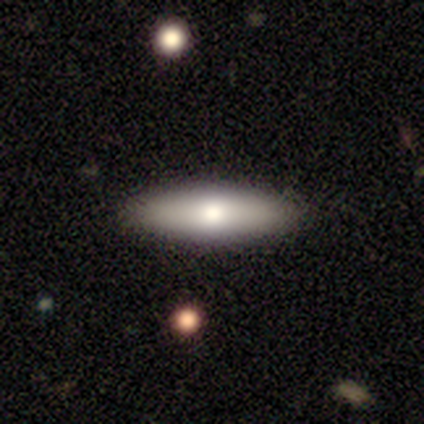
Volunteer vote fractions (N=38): Smooth or featured?
  - smooth: 89% *
  - featured or disk: 8%
  - star or artifact: 3%
How rounded?
  - cigar-shaped: 56% *
  - in between: 44%
  - round: 0%
Merging?
  - none: 57% *
  - minor disturbance: 19%
  - merger: 5%
  - major disturbance: 3%